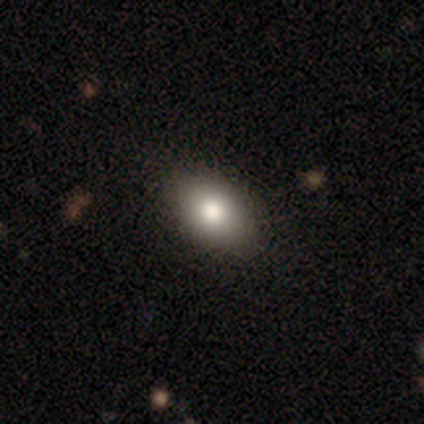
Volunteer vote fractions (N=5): smooth 80%, featured or disk 20%, star or artifact 0%. Down the decision tree: how rounded — in between (75%); merging — none (80%).